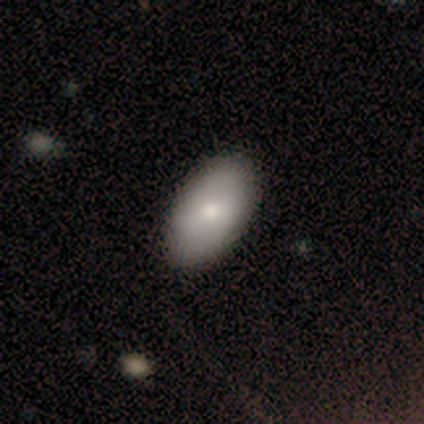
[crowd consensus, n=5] Smooth or featured? smooth (80%)
How rounded? in between (100%)
Merging? none (100%)